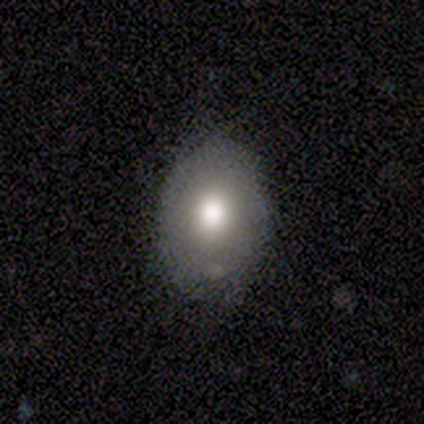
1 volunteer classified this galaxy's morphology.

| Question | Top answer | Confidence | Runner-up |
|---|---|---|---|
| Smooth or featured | smooth | 100% | — |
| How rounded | in between | 100% | — |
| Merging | minor disturbance | 100% | — |